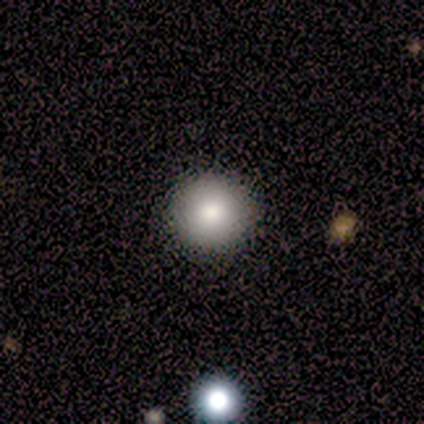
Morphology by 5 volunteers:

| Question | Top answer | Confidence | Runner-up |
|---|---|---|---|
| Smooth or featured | smooth | 80% | star or artifact (20%) |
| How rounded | round | 100% | — |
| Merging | none | 75% | minor disturbance (25%) |